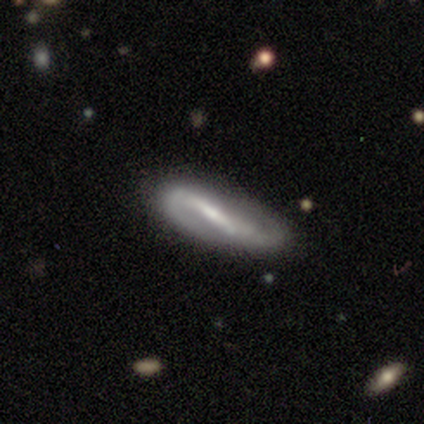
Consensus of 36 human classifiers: Smooth or featured?
  - featured or disk: 86% *
  - smooth: 11%
  - star or artifact: 3%
Edge-on disk?
  - no: 90% *
  - yes: 10%
Bar?
  - strong: 79% *
  - weak: 21%
  - no: 0%
Spiral arms?
  - yes: 86% *
  - no: 14%
Spiral winding?
  - loose: 42% *
  - tight: 29%
  - medium: 29%
Spiral arm count?
  - 2: 96% *
  - 1: 4%
  - 3: 0%
  - 4: 0%
  - more than 4: 0%
  - can't tell: 0%
Bulge size?
  - small: 50% *
  - moderate: 29%
  - none: 18%
  - large: 4%
  - dominant: 0%
Merging?
  - none: 77% *
  - minor disturbance: 17%
  - major disturbance: 6%
  - merger: 0%